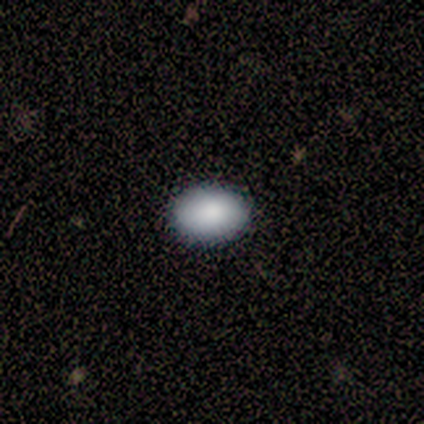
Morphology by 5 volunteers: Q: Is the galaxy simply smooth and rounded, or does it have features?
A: smooth — 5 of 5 (100%).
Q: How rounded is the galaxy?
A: in between — 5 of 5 (100%).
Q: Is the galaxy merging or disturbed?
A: none — 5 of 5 (100%).